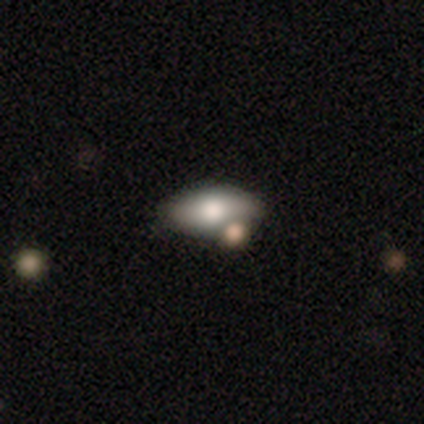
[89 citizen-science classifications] Smooth or featured: smooth — 75% (featured or disk — 16%)
How rounded: in between — 90% (cigar-shaped — 7%)
Merging: none — 58% (minor disturbance — 20%)